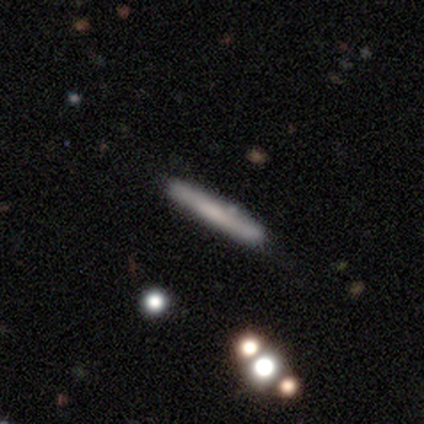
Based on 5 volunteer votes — Smooth or featured? 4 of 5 (80%) said smooth. How rounded? 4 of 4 (100%) said cigar-shaped. Merging? 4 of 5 (80%) said none.